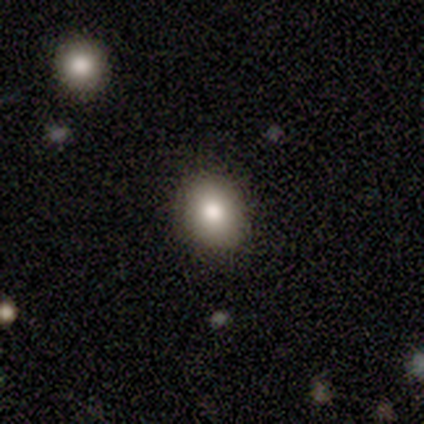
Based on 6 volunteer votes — A smooth galaxy with no disk features (83%) that is round (60%).

Vote fractions:
- Smooth or featured? smooth: 83% / star or artifact: 17% / featured or disk: 0%
- How rounded? round: 60% / in between: 40% / cigar-shaped: 0%
- Merging? none: 100% / minor disturbance: 0% / major disturbance: 0% / merger: 0%